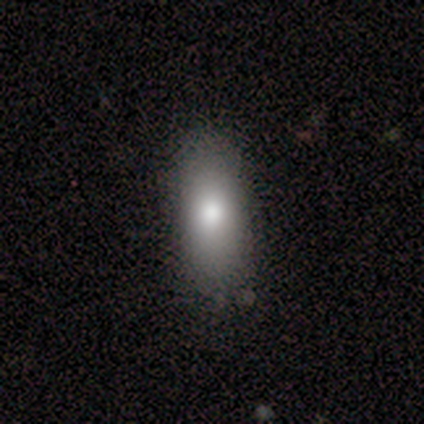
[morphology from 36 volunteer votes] Overall: smooth (75%). How rounded: in between (70%). Merging: none (79%).